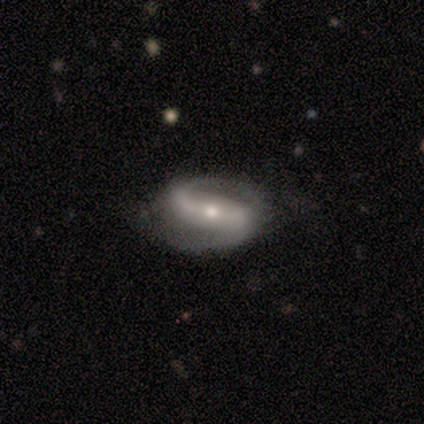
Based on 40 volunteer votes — Volunteers were most divided on "spiral winding": medium: 40%, loose: 31%, tight: 29%. Remaining: spiral arms — yes (100%); spiral arm count — 2 (100%); edge-on disk — no (95%); smooth or featured — featured or disk (92%); merging — none (87%); bulge size — moderate (66%); bar — strong (46%).